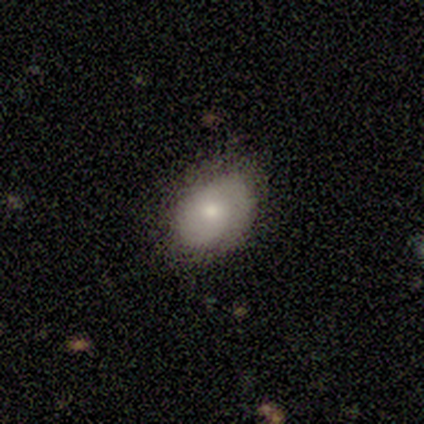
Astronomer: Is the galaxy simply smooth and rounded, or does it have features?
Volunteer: smooth — 80%.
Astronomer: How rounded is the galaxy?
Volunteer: in between — 100%.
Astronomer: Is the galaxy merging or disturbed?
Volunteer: none — 80%.